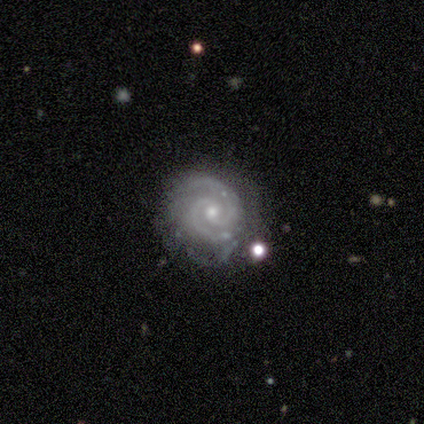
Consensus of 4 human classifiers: This is clearly a featured or disk galaxy (100%). It is clearly not viewed edge-on (100%). Bar: possibly no (50%). Spiral arm pattern: clearly yes (100%). Spiral arm count: clearly 2 (100%). Spiral winding: likely tight (75%). Central bulge: possibly moderate (50%, tied with small). Merging: clearly none (100%).